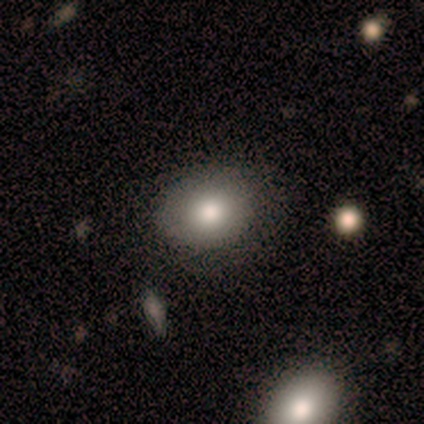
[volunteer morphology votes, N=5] Smooth or featured?
  - smooth: 60% *
  - featured or disk: 20%
  - star or artifact: 20%
How rounded?
  - round: 67% *
  - in between: 33%
  - cigar-shaped: 0%
Merging?
  - none: 75% *
  - minor disturbance: 25%
  - major disturbance: 0%
  - merger: 0%